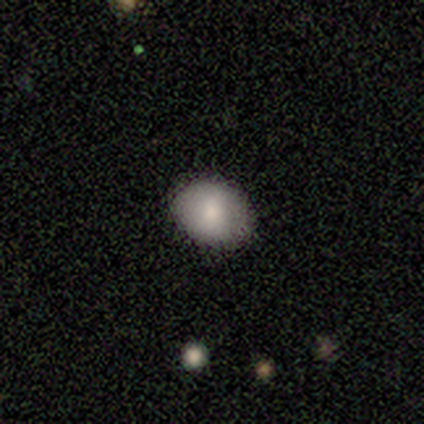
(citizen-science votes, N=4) smooth 75%, featured or disk 25%, star or artifact 0%. Down the decision tree: how rounded — in between (67%); merging — none (100%).